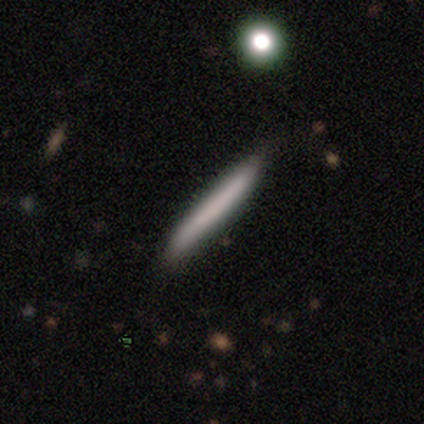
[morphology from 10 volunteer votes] smooth_or_featured: smooth (p=0.50) [tied with: featured or disk p=0.50]
how_rounded: cigar-shaped (p=1.00)
merging: none (p=0.80) [alt: minor disturbance p=0.20]